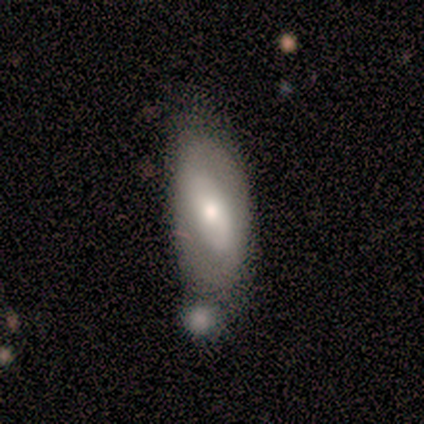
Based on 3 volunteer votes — smooth 67%, featured or disk 33%, star or artifact 0%. Down the decision tree: how rounded — in between (50%, tied with cigar-shaped); merging — minor disturbance (67%).